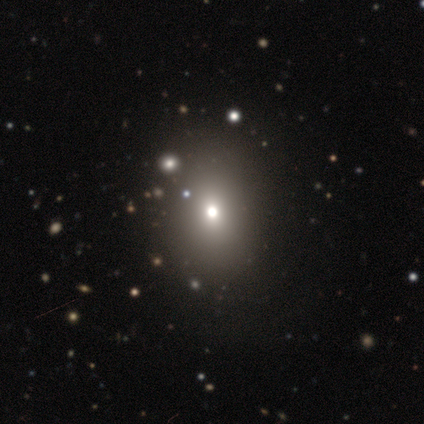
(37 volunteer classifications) smooth_or_featured: smooth (p=0.76) [alt: featured or disk p=0.22]
how_rounded: round (p=0.64) [alt: in between p=0.32]
merging: none (p=0.89) [alt: minor disturbance p=0.06]